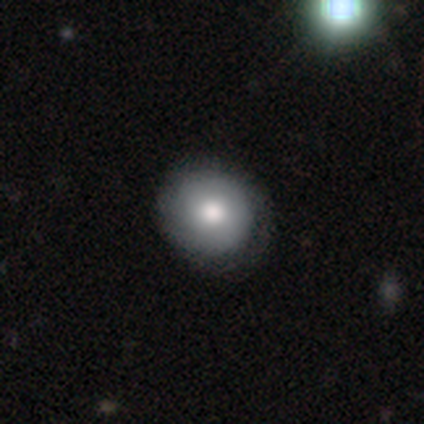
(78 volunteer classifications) Morphology: type=smooth (78%); roundness=round (98%); merging=none (43%).